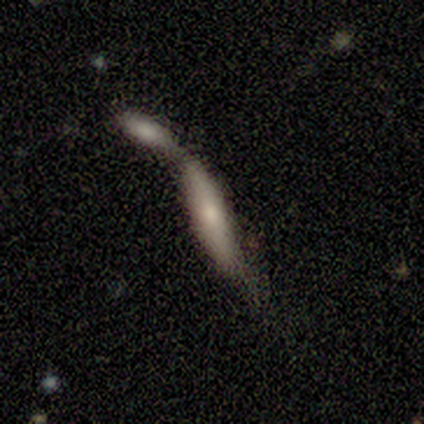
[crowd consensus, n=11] Smooth or featured? featured or disk (45%)
Edge-on disk? yes (60%)
Edge-on bulge? rounded (100%)
Merging? merger (88%)